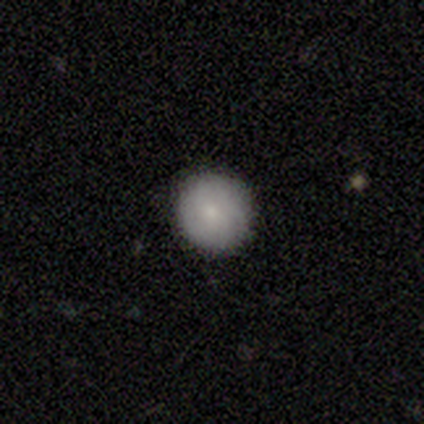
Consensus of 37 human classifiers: Volunteers were most divided on "smooth or featured": smooth: 76%, featured or disk: 16%, star or artifact: 8%. More confident: how rounded — round (96%); merging — none (94%).